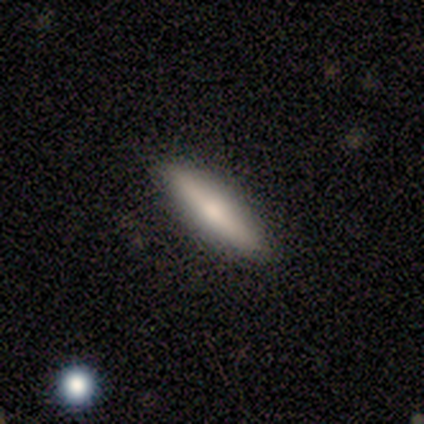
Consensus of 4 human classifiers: Q: Smooth or featured?
A: smooth (100%)
Q: How rounded?
A: cigar-shaped (75%); runner-up: in between (25%)
Q: Merging?
A: none (75%); runner-up: minor disturbance (25%)